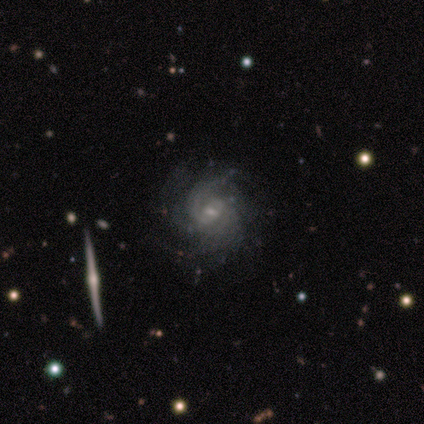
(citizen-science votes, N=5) smooth_or_featured: featured or disk (p=1.00)
disk_edge_on: no (p=1.00)
bar: no (p=0.60) [alt: weak p=0.40]
has_spiral_arms: yes (p=1.00)
spiral_winding: tight (p=0.40) [tied with: medium p=0.40]
spiral_arm_count: 4 (p=0.40) [tied with: can't tell p=0.40]
bulge_size: moderate (p=0.80) [alt: small p=0.20]
merging: none (p=1.00)